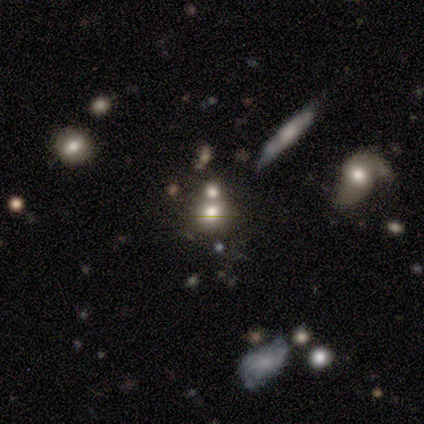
A featured or disk galaxy (50%) with no bar (100%), no spiral arms (100%) and a large central bulge (67%). Merging: none (57%).